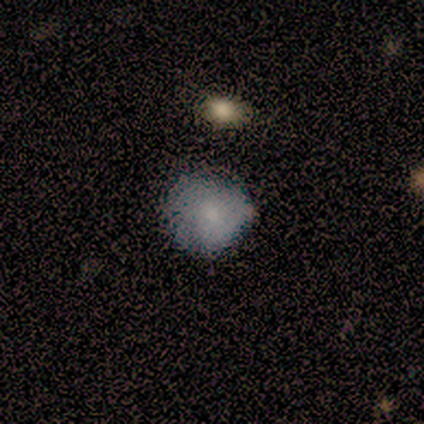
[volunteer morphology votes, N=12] Smooth or featured: smooth — 75% (featured or disk — 17%)
How rounded: round — 89% (in between — 11%)
Merging: none — 82% (minor disturbance — 18%)